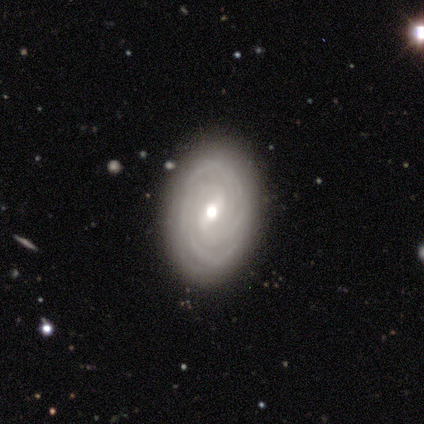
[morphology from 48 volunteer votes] Overall: featured or disk (85%). Edge-on disk: no (98%). Bar: weak (60%; strong 22%). Spiral arms: yes (95%). Spiral arm count: can't tell (45%; 2 24%). Spiral winding: tight (84%). Bulge size: moderate (72%). Merging: none (89%).